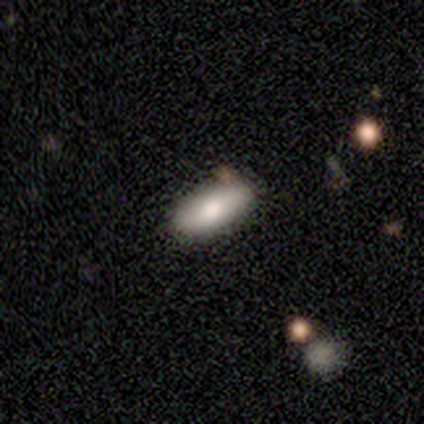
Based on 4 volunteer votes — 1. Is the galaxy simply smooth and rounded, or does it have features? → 50% smooth, 25% featured or disk, 25% star or artifact.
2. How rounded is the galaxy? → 50% in between (tied), 50% cigar-shaped (tied), 0% round.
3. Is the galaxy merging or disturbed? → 100% none, 0% minor disturbance, 0% major disturbance, 0% merger.